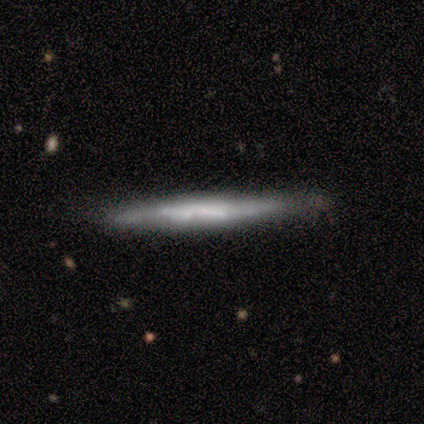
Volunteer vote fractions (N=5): Q: Smooth or featured?
A: featured or disk (60%); runner-up: smooth (20%)
Q: Edge-on disk?
A: yes (67%); runner-up: no (33%)
Q: Edge-on bulge?
A: none (50%); tied with: rounded (50%)
Q: Merging?
A: none (50%); tied with: minor disturbance (50%)